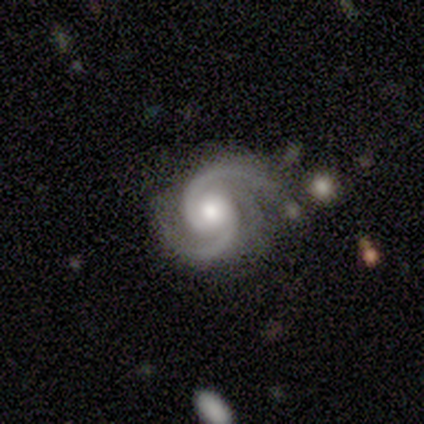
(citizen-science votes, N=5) This appears to be a featured or disk galaxy (80%) with no bar (100%), 2 (100%) tight (75%) spiral arms (100%) and a small central bulge (50%). Merging: none (80%).